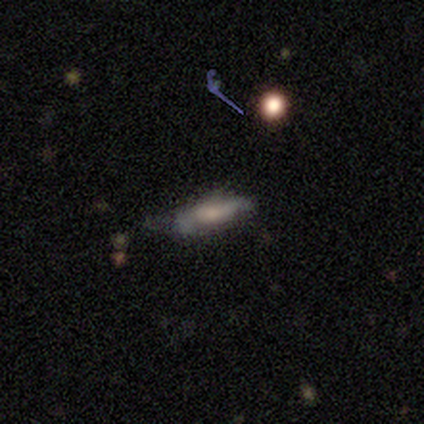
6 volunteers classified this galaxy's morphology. Smooth or featured? featured or disk (50%)
Edge-on disk? no (100%)
Bar? no (67%)
Spiral arms? no (67%)
Bulge size? moderate (33%, tied with small and none)
Merging? minor disturbance (60%)